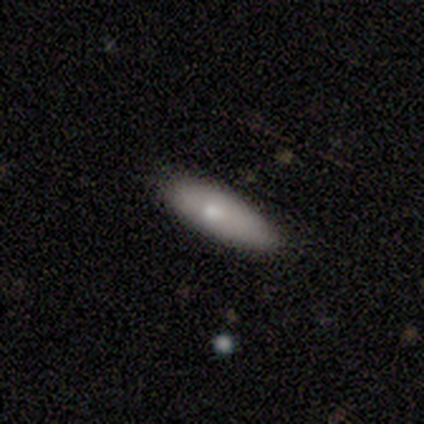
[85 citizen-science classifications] Smooth or featured? smooth (82%)
How rounded? cigar-shaped (53%)
Merging? none (79%)